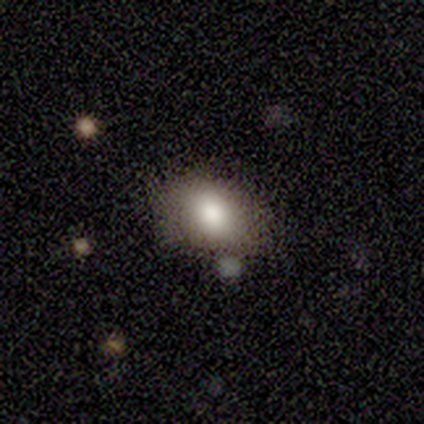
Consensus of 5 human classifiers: smooth_or_featured: smooth (p=0.80) [alt: featured or disk p=0.20]
how_rounded: round (p=0.75) [alt: in between p=0.25]
merging: minor disturbance (p=0.60) [alt: none p=0.20]